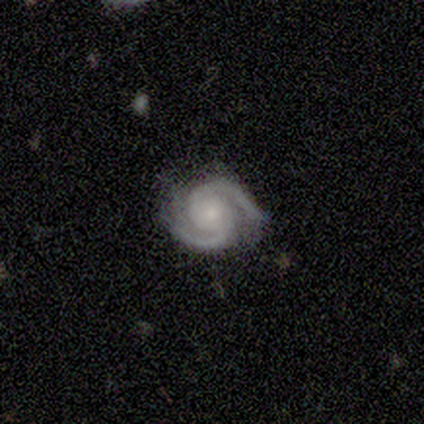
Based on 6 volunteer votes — Smooth or featured? featured or disk (100%)
Edge-on disk? no (100%)
Bar? no (67%)
Spiral arms? yes (100%)
Spiral winding? tight (83%)
Spiral arm count? 2 (83%)
Bulge size? moderate (50%, tied with small)
Merging? none (67%)